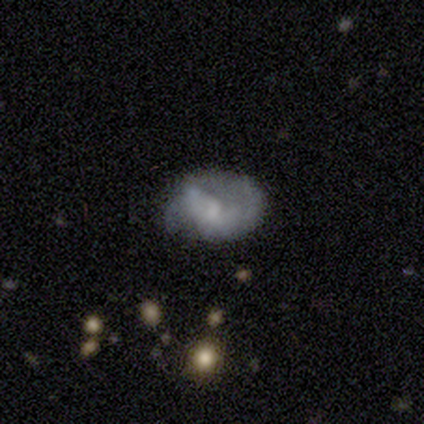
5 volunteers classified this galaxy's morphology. A smooth galaxy with no disk features (80%) that is in between round and cigar-shaped (75%). Merging: minor disturbance (80%).